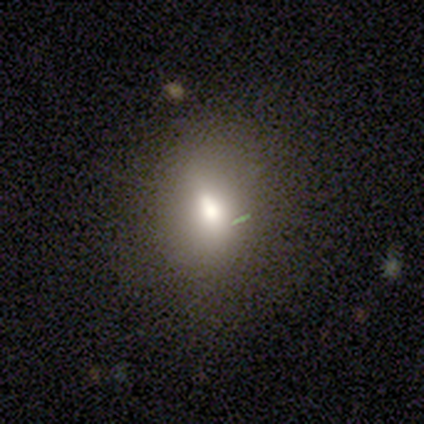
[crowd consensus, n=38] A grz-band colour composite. It shows a smooth galaxy with no disk features (68%) that is in between round and cigar-shaped (50%). Merging: none (79%).